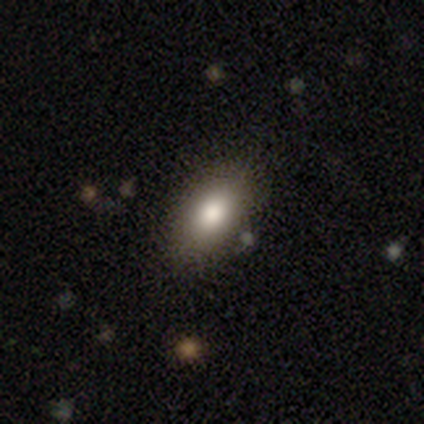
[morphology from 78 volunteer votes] smooth_or_featured: smooth (p=0.90) [alt: featured or disk p=0.06]
how_rounded: in between (p=0.90) [alt: round p=0.07]
merging: none (p=0.53) [alt: minor disturbance p=0.09]